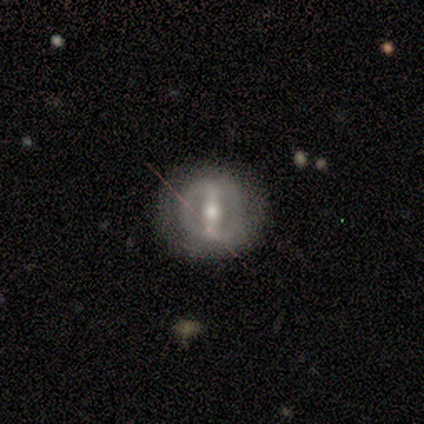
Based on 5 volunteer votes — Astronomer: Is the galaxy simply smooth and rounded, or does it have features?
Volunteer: featured or disk — 60% (runner-up: smooth, 40%).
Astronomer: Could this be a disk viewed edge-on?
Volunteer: no — 100%.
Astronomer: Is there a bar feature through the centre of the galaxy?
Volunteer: strong — 100%.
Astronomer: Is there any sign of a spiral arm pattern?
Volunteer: no — 100%.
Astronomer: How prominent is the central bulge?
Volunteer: moderate — 100%.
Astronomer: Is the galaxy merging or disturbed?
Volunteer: none — 60% (runner-up: minor disturbance, 40%).